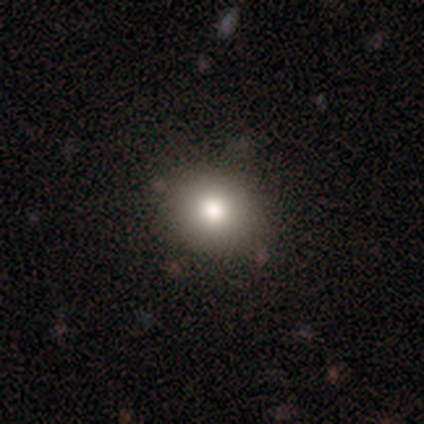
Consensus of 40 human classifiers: Q: Smooth or featured?
A: smooth (68%); runner-up: star or artifact (20%)
Q: How rounded?
A: round (78%); runner-up: in between (22%)
Q: Merging?
A: none (91%); runner-up: minor disturbance (6%)